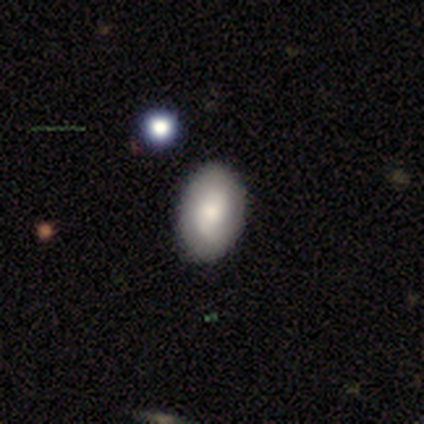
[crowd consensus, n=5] Morphology: type=smooth (80%); roundness=in between (100%); merging=none (100%).